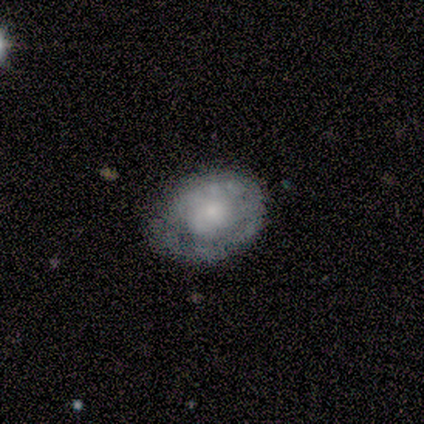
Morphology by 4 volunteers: Smooth or featured? 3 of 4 (75%) said featured or disk. Edge-on disk? 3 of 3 (100%) said no. Bar? 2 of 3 (67%) said no. Spiral arms? 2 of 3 (67%) said no. Bulge size? 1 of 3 (33%, tied with small and none) said moderate. Merging? 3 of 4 (75%) said none.